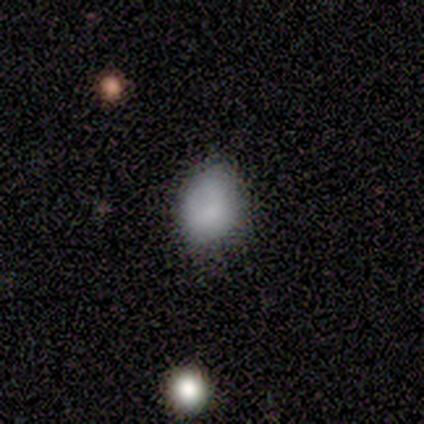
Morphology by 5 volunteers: Smooth or featured? smooth (80%)
How rounded? round (50%, tied with in between)
Merging? none (100%)